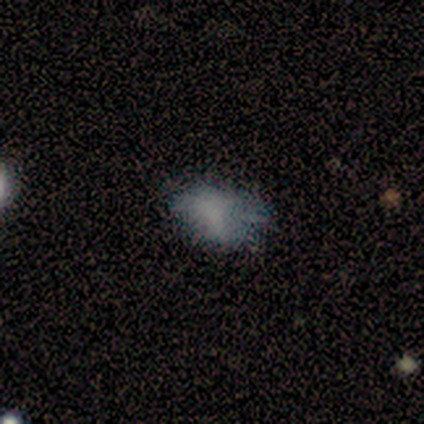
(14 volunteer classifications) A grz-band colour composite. It shows a smooth galaxy with no disk features (57%) that is in between round and cigar-shaped (100%). Merging: none (67%).